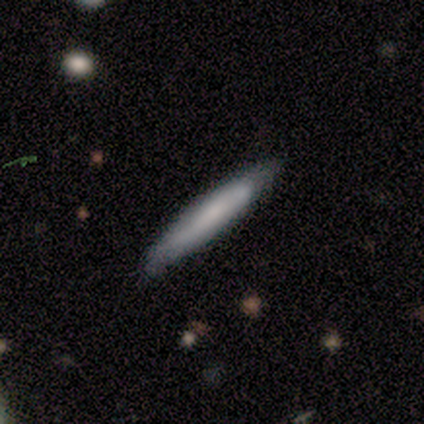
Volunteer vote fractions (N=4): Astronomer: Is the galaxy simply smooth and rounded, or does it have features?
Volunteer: smooth — 50%, tied with featured or disk at 50%.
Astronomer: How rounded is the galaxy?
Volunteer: cigar-shaped — 100%.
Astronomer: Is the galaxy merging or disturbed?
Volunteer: none — 100%.